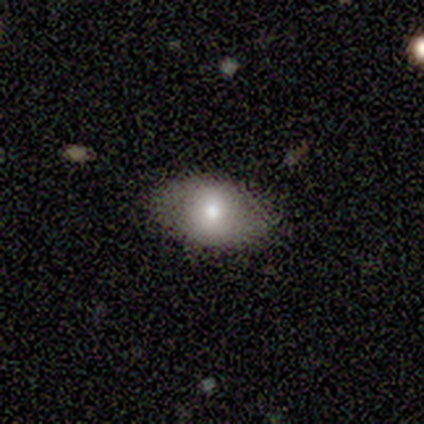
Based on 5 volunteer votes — Volunteers were most divided on "how rounded": in between: 80%, round: 20%, cigar-shaped: 0%. More confident: smooth or featured — smooth (100%); merging — none (80%).